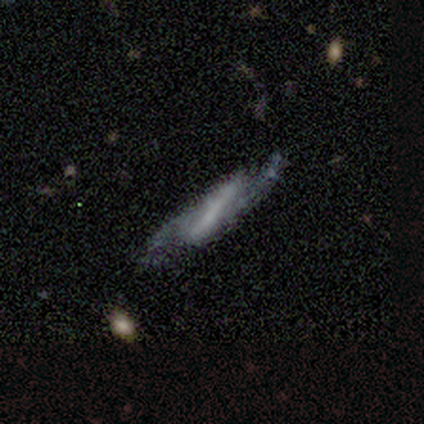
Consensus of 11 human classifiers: This appears to be a featured or disk galaxy (82%) with a strong bar (67%), 2 (100%) loose (67%) spiral arms (100%) and a moderate central bulge (33%, tied with small and none). Merging: none (70%).